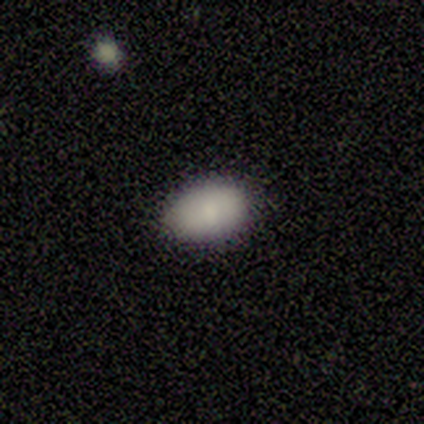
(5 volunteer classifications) Smooth or featured?
  - smooth: 100% *
  - featured or disk: 0%
  - star or artifact: 0%
How rounded?
  - in between: 100% *
  - round: 0%
  - cigar-shaped: 0%
Merging?
  - none: 60% *
  - minor disturbance: 40%
  - major disturbance: 0%
  - merger: 0%